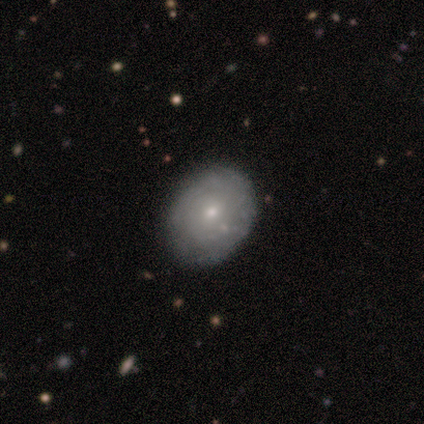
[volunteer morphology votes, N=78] A featured or disk galaxy (51%) with no bar (82%), tight (81%) spiral arms (67%) and a small central bulge (64%).

Vote fractions:
- Smooth or featured? featured or disk: 51% / smooth: 46% / star or artifact: 3%
- Edge-on disk? no: 98% / yes: 2%
- Bar? no: 82% / weak: 18% / strong: 0%
- Spiral arms? yes: 67% / no: 33%
- Spiral winding? tight: 81% / medium: 15% / loose: 4%
- Spiral arm count? can't tell: 81% / 4: 12% / 1: 4% / 2: 4% / 3: 0% / more than 4: 0%
- Bulge size? small: 64% / moderate: 28% / dominant: 3% / large: 3% / none: 3%
- Merging? none: 38% / minor disturbance: 12% / merger: 3% / major disturbance: 0%